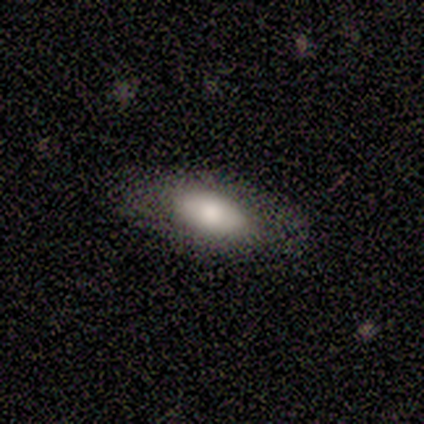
Smooth or featured?
  - smooth: 78% *
  - featured or disk: 22%
  - star or artifact: 0%
How rounded?
  - in between: 71% *
  - cigar-shaped: 29%
  - round: 0%
Merging?
  - none: 100% *
  - minor disturbance: 0%
  - major disturbance: 0%
  - merger: 0%